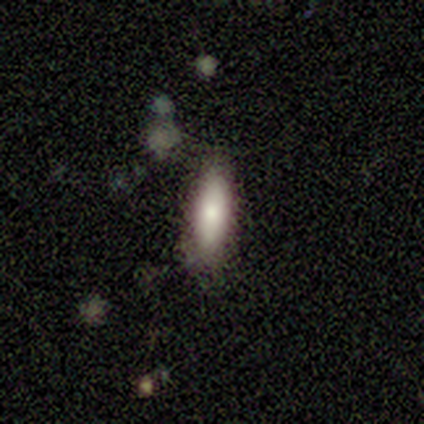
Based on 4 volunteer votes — smooth_or_featured: smooth (p=0.75) [alt: featured or disk p=0.25]
how_rounded: cigar-shaped (p=0.67) [alt: in between p=0.33]
merging: none (p=0.75) [alt: minor disturbance p=0.25]